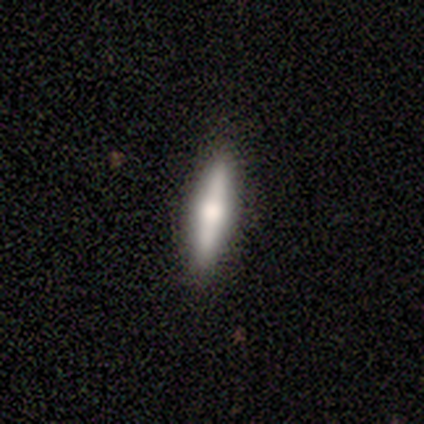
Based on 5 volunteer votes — Volunteers were most divided on "smooth or featured": smooth: 60%, featured or disk: 40%, star or artifact: 0%. More confident: how rounded — cigar-shaped (100%); merging — none (80%).